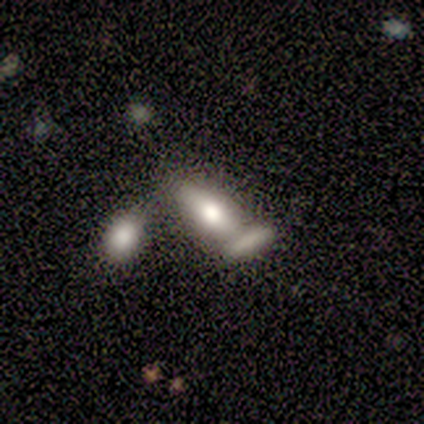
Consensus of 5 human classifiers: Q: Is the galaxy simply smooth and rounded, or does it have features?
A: smooth — 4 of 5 (80%).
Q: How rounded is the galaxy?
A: in between — 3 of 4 (75%).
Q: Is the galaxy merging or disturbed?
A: none — 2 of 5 (40%, tied with merger).